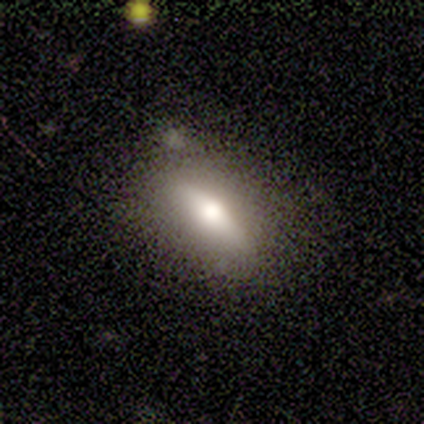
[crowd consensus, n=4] Smooth or featured: smooth — 75% (featured or disk — 25%)
How rounded: in between — 67% (cigar-shaped — 33%)
Merging: none — 75% (major disturbance — 25%)